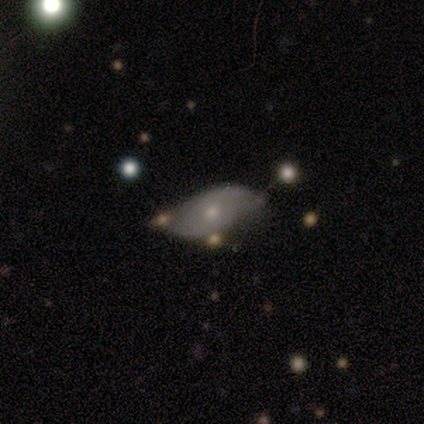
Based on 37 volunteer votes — This is possibly a featured or disk galaxy (59%). It is clearly not viewed edge-on (86%). Bar: likely no (79%). Spiral arm pattern: possibly yes (53%). Spiral arm count: likely 2 (70%). Spiral winding: possibly medium (50%). Central bulge: likely small (74%). Merging: marginally none (32%, tied with minor disturbance).